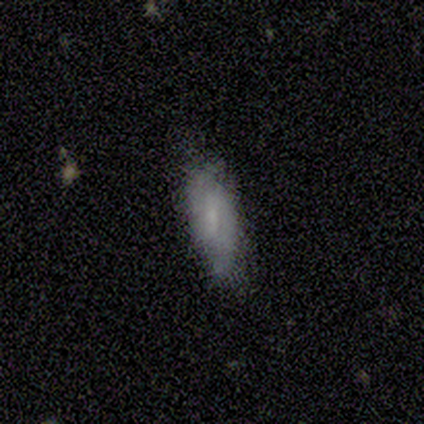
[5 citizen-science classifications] Morphology: type=smooth (60%); roundness=cigar-shaped (67%); merging=minor disturbance (80%).